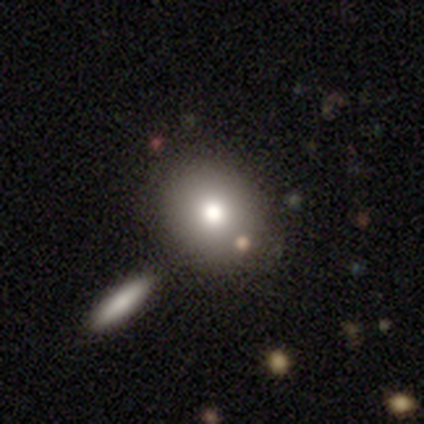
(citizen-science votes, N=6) Smooth or featured: smooth — 83% (featured or disk — 17%)
How rounded: in between — 60% (round — 40%)
Merging: none — 83% (merger — 17%)